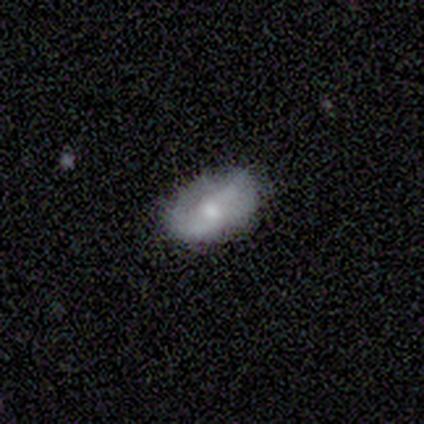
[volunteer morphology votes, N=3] A smooth galaxy with no disk features (67%) that is in between round and cigar-shaped (100%).

Vote fractions:
- Smooth or featured? smooth: 67% / featured or disk: 33% / star or artifact: 0%
- How rounded? in between: 100% / round: 0% / cigar-shaped: 0%
- Merging? minor disturbance: 67% / none: 33% / major disturbance: 0% / merger: 0%